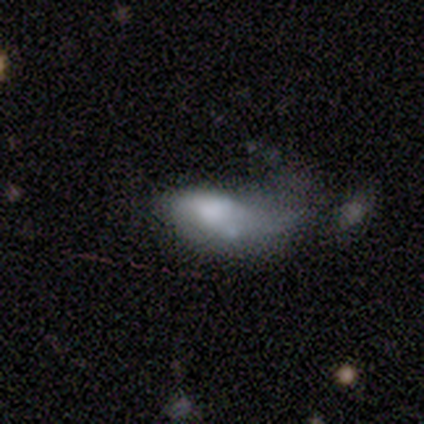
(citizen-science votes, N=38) Volunteers were most divided on "merging": major disturbance: 55%, minor disturbance: 21%, none: 15%, merger: 9%. More confident: how rounded — in between (88%); smooth or featured — smooth (63%).